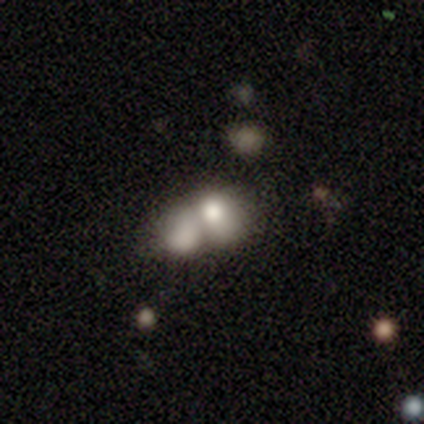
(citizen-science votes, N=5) Smooth or featured? 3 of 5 (60%) said smooth. How rounded? 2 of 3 (67%) said in between. Merging? 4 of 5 (80%) said merger.